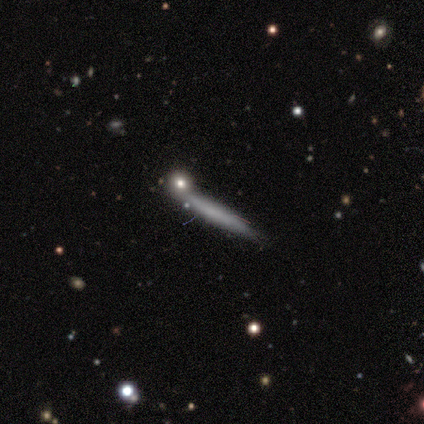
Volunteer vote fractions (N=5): smooth_or_featured: featured or disk (p=0.60) [alt: smooth p=0.40]
disk_edge_on: yes (p=1.00)
edge_on_bulge: none (p=1.00)
merging: none (p=0.80) [alt: merger p=0.20]